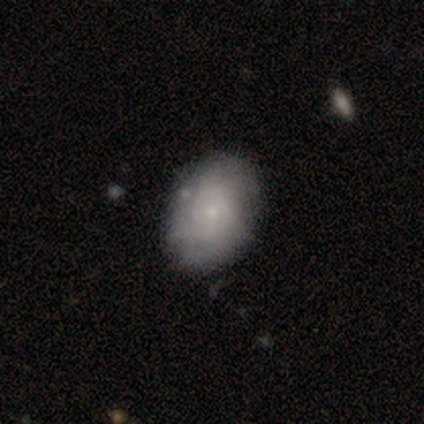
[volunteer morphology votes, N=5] smooth-or-featured: smooth: 60% | featured or disk: 40% | star or artifact: 0%
  how-rounded: in between: 100% | round: 0% | cigar-shaped: 0%
  merging: none: 100% | minor disturbance: 0% | major disturbance: 0% | merger: 0%